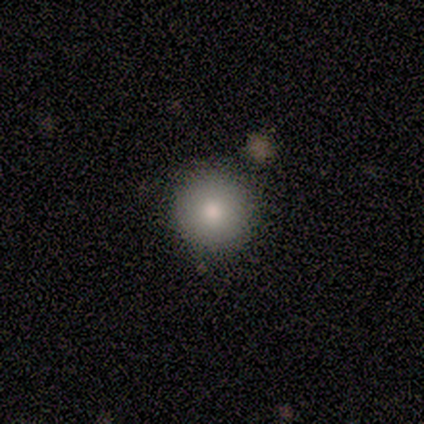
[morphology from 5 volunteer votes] Smooth or featured: smooth — 100%
How rounded: round — 100%
Merging: none — 100%